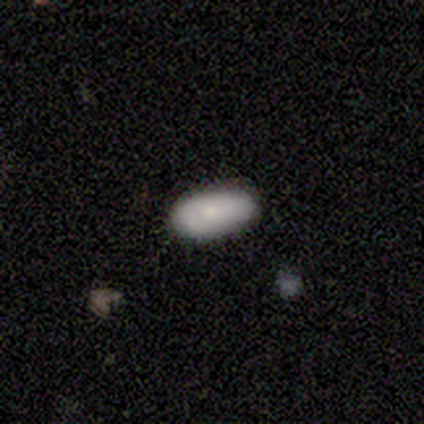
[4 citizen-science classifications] Morphology: type=featured or disk (50%); edge-on=no (100%); bar=no (100%); spiral arms=yes (50%, tied with no); winding=loose (100%); arm count=1 (100%); bulge=small (100%); merging=none (100%).